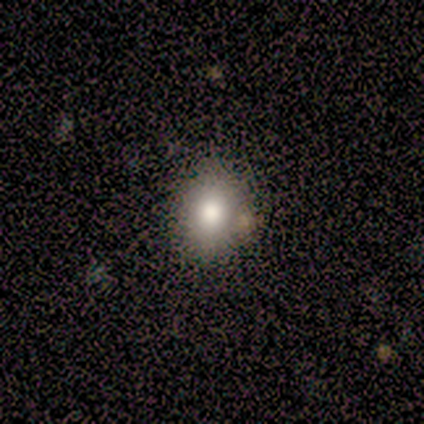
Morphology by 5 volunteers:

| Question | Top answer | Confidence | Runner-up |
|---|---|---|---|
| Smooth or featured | smooth | 80% | star or artifact (20%) |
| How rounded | round | 75% | in between (25%) |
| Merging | none | 50% | minor disturbance (25%) |